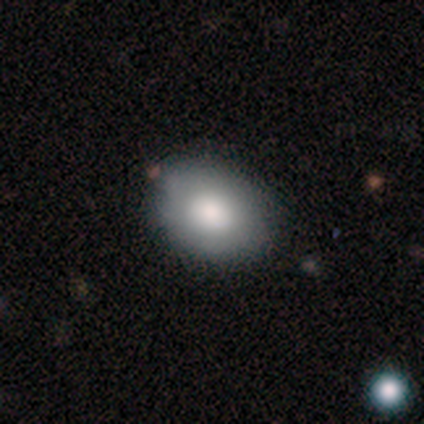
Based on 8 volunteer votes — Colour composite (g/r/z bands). It shows a smooth galaxy with no disk features (75%) that is in between round and cigar-shaped (67%). Merging: none (88%).